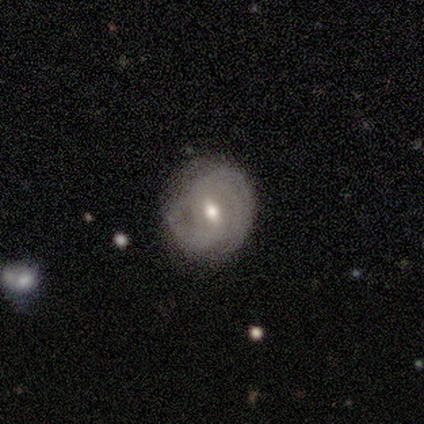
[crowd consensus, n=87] Overall: featured or disk (66%; smooth 26%). Edge-on disk: no (98%). Bar: weak (52%; no 32%). Spiral arms: yes (95%). Spiral arm count: 2 (42%; can't tell 34%). Spiral winding: tight (64%). Bulge size: moderate (59%; small 39%). Merging: none (68%).